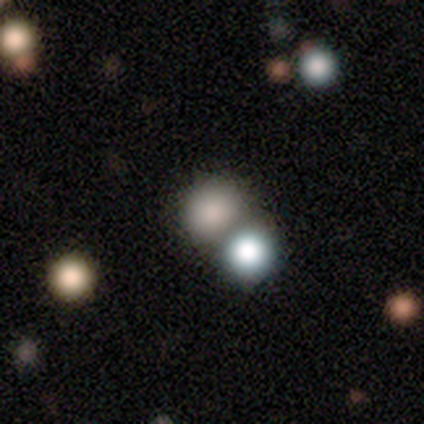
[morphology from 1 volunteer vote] This appears to be a smooth galaxy with no disk features (100%) that is round (100%). Merging: minor disturbance (100%).